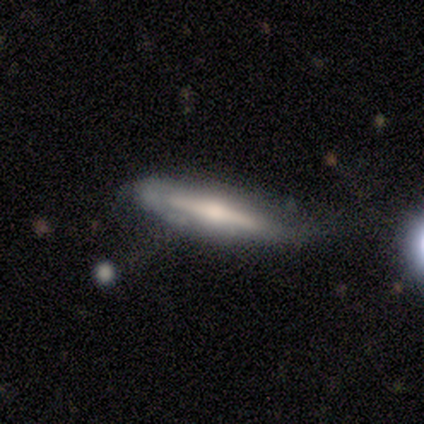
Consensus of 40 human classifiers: Smooth or featured? featured or disk (75%)
Edge-on disk? yes (83%)
Edge-on bulge? rounded (92%)
Merging? none (44%)